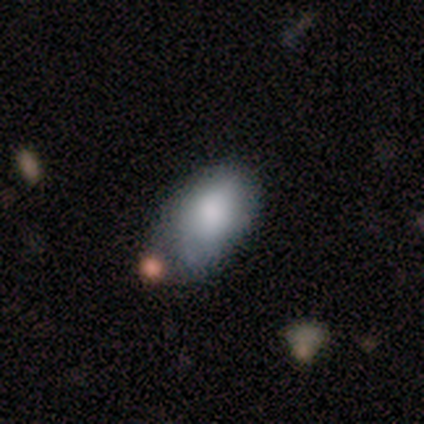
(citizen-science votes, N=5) smooth_or_featured: smooth (p=0.80) [alt: featured or disk p=0.20]
how_rounded: in between (p=0.75) [alt: round p=0.25]
merging: minor disturbance (p=0.60) [alt: none p=0.40]